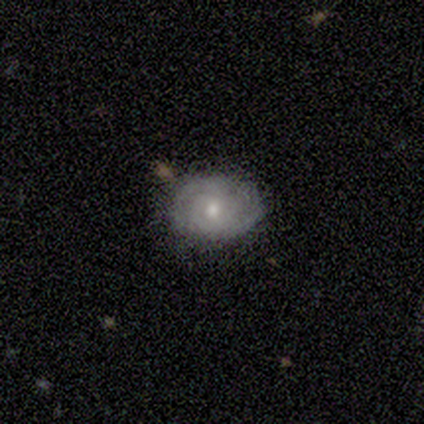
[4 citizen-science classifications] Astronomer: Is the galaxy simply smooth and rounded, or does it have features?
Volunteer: featured or disk — 50%.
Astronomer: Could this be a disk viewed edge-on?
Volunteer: no — 100%.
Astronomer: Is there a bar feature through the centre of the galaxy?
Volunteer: weak — 50%, tied with no at 50%.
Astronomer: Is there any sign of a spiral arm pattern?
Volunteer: yes — 100%.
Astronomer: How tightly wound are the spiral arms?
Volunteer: tight — 100%.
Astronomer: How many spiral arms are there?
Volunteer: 2 — 100%.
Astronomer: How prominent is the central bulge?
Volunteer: moderate — 100%.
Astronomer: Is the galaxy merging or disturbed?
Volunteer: none — 100%.